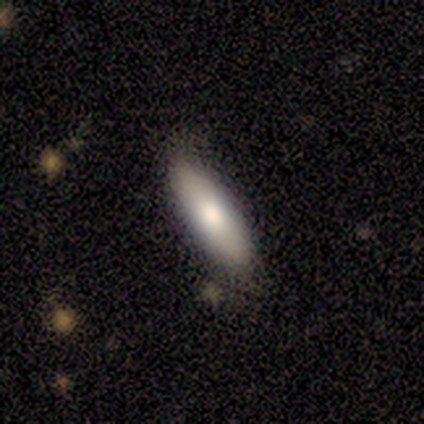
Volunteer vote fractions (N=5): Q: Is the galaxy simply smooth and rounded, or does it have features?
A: smooth — 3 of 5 (60%).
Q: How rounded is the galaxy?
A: in between — 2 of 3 (67%).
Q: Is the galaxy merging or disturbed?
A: none — 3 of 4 (75%).